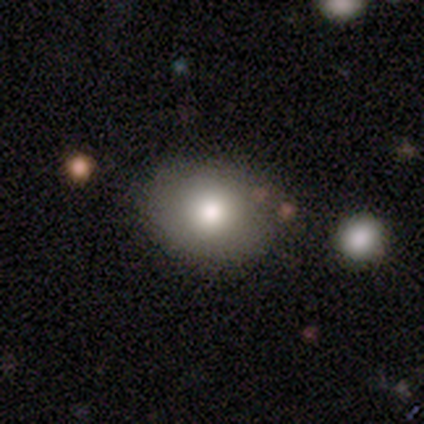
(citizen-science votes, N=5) Smooth or featured? smooth (80%)
How rounded? round (50%, tied with in between)
Merging? none (100%)